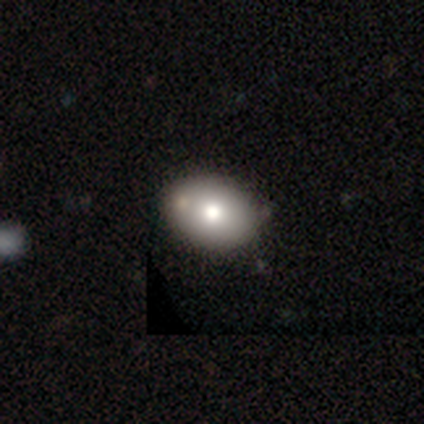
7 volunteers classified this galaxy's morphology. smooth_or_featured: smooth (p=0.86) [alt: featured or disk p=0.14]
how_rounded: in between (p=0.83) [alt: round p=0.17]
merging: none (p=0.86) [alt: minor disturbance p=0.14]